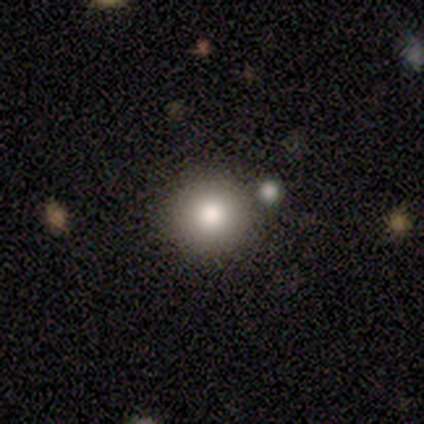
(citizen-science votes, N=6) This appears to be a smooth galaxy with no disk features (83%) that is round (80%). Merging: none (100%).